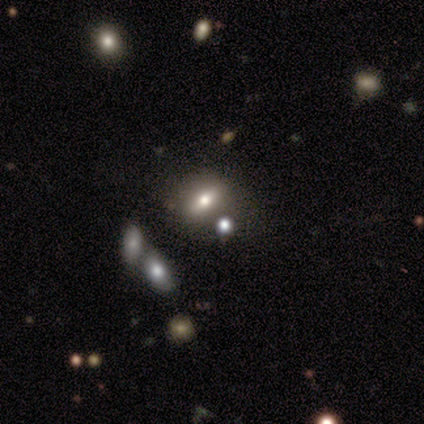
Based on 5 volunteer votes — smooth_or_featured: smooth (p=0.80) [alt: featured or disk p=0.20]
how_rounded: in between (p=0.75) [alt: cigar-shaped p=0.25]
merging: none (p=0.60) [alt: minor disturbance p=0.20]